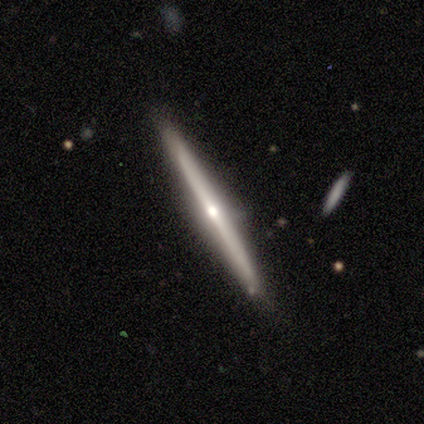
smooth-or-featured: featured or disk: 83% | smooth: 17% | star or artifact: 0%
  disk-edge-on: yes: 100% | no: 0%
    edge-on-bulge: rounded: 100% | boxy: 0% | none: 0%
  merging: none: 100% | minor disturbance: 0% | major disturbance: 0% | merger: 0%